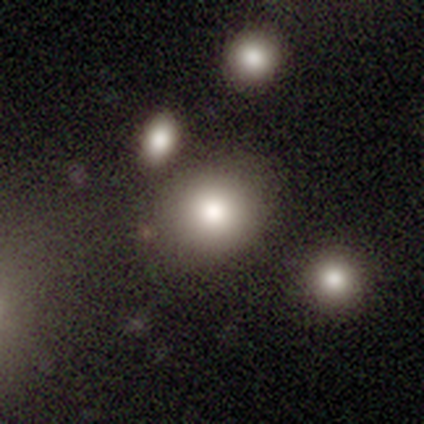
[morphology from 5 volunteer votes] smooth-or-featured: smooth: 80% | featured or disk: 20% | star or artifact: 0%
  how-rounded: round: 50% (tied) | in between: 50% (tied) | cigar-shaped: 0%
  merging: none: 80% | minor disturbance: 20% | major disturbance: 0% | merger: 0%